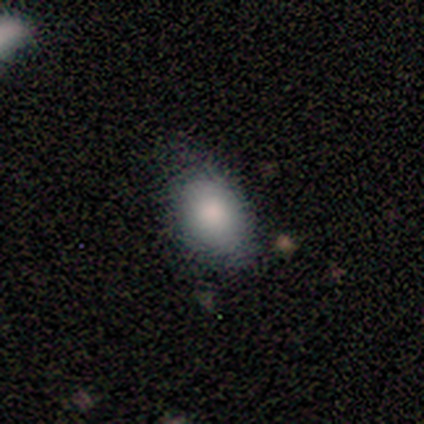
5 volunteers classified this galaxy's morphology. A smooth galaxy with no disk features (100%) that is in between round and cigar-shaped (80%).

Vote fractions:
- Smooth or featured? smooth: 100% / featured or disk: 0% / star or artifact: 0%
- How rounded? in between: 80% / round: 20% / cigar-shaped: 0%
- Merging? minor disturbance: 60% / none: 40% / major disturbance: 0% / merger: 0%